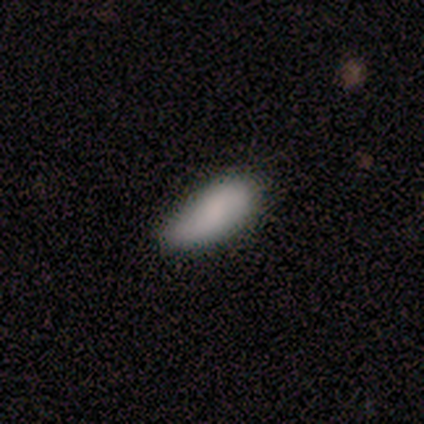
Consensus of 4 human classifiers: A smooth galaxy with no disk features (100%) that is in between round and cigar-shaped (100%).

Vote fractions:
- Smooth or featured? smooth: 100% / featured or disk: 0% / star or artifact: 0%
- How rounded? in between: 100% / round: 0% / cigar-shaped: 0%
- Merging? none: 75% / major disturbance: 25% / minor disturbance: 0% / merger: 0%